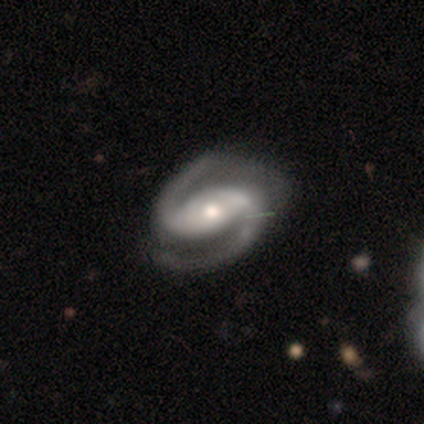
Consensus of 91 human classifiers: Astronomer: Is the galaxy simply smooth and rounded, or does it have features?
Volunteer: featured or disk — 93%.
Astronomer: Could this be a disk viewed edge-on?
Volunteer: no — 96%.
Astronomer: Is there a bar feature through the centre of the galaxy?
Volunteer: strong — 44% (runner-up: weak, 33%).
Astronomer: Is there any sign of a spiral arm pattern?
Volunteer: yes — 98%.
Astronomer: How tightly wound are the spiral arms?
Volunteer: medium — 61%.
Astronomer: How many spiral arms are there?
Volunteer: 2 — 99%.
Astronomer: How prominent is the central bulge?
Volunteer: moderate — 65%.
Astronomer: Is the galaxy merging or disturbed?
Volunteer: none — 64%.